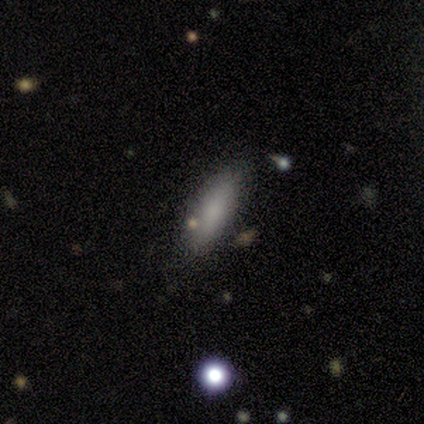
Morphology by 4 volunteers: Overall: smooth (75%). How rounded: in between (67%; cigar-shaped 33%). Merging: none (67%; minor disturbance 33%).